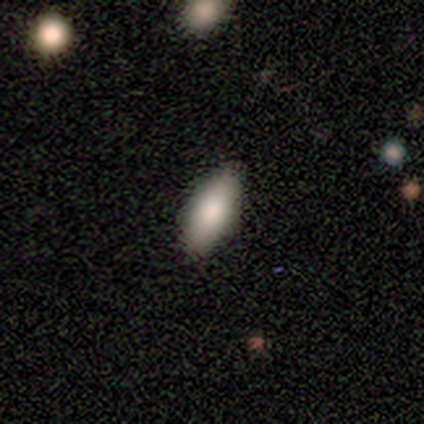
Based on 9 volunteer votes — Overall: smooth (67%). How rounded: in between (100%). Merging: none (100%).